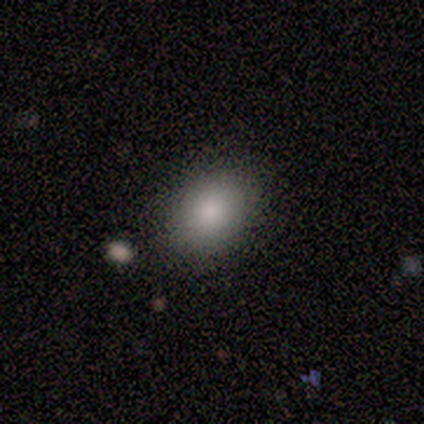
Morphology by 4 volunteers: A smooth galaxy with no disk features (100%) that is round (50%, tied with in between). Merging: none (100%).